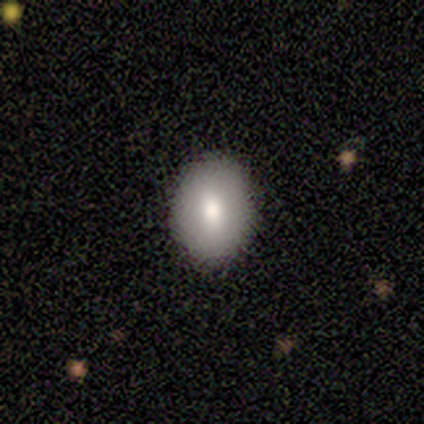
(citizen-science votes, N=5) A smooth galaxy with no disk features (100%) that is in between round and cigar-shaped (60%). Merging: none (100%).